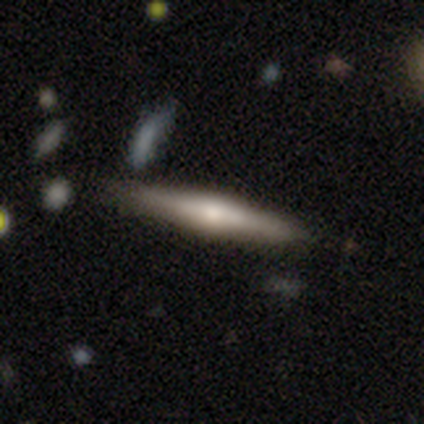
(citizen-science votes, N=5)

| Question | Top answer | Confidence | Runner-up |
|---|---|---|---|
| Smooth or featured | featured or disk | 80% | smooth (20%) |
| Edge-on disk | yes | 75% | no (25%) |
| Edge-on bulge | rounded | 100% | — |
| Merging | none | 100% | — |